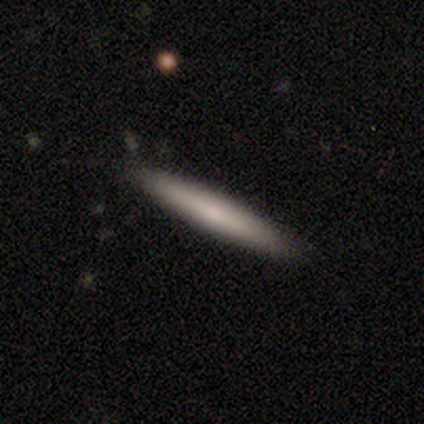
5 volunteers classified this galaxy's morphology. type=smooth (80%); roundness=cigar-shaped (100%); merging=none (100%).